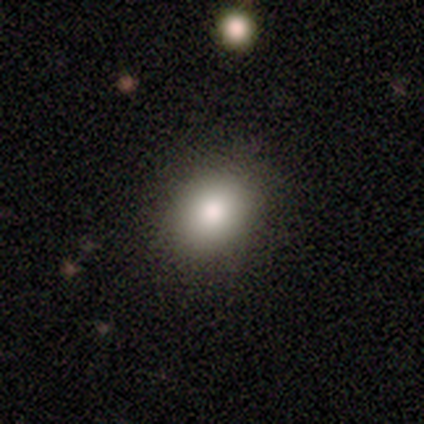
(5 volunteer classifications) This is clearly a smooth galaxy (80%). How rounded: clearly in between (100%). Merging: likely none (60%).